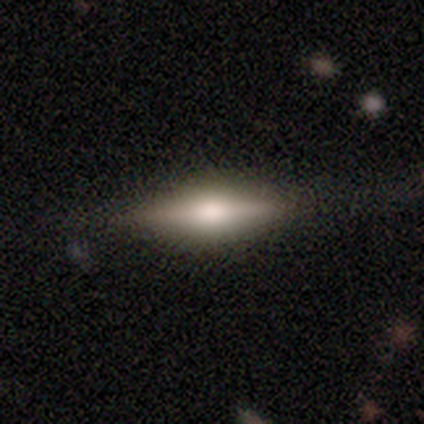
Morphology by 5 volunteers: smooth_or_featured: featured or disk (p=0.80) [alt: smooth p=0.20]
disk_edge_on: yes (p=1.00)
edge_on_bulge: rounded (p=1.00)
merging: none (p=0.80) [alt: minor disturbance p=0.20]